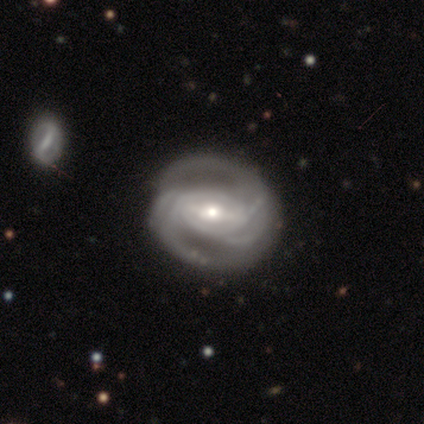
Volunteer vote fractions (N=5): smooth-or-featured: featured or disk: 60% | smooth: 40% | star or artifact: 0%
  disk-edge-on: no: 100% | yes: 0%
    bar: strong: 100% | weak: 0% | no: 0%
    has-spiral-arms: yes: 100% | no: 0%
      spiral-winding: medium: 67% | tight: 33% | loose: 0%
      spiral-arm-count: 2: 33% (tied) | 3: 33% (tied) | can't tell: 33% (tied) | 1: 0% | 4: 0% | more than 4: 0%
    bulge-size: moderate: 67% | small: 33% | dominant: 0% | large: 0% | none: 0%
  merging: none: 80% | major disturbance: 20% | minor disturbance: 0% | merger: 0%